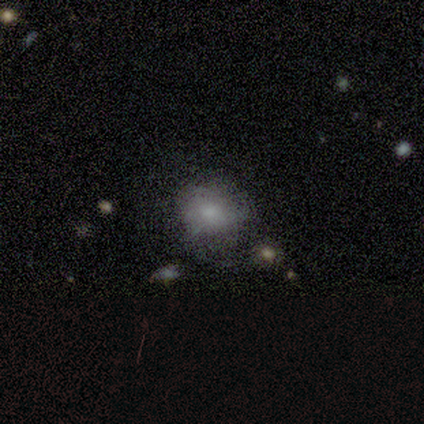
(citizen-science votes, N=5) Overall: smooth (80%). How rounded: round (50%, tied with in between). Merging: none (80%).